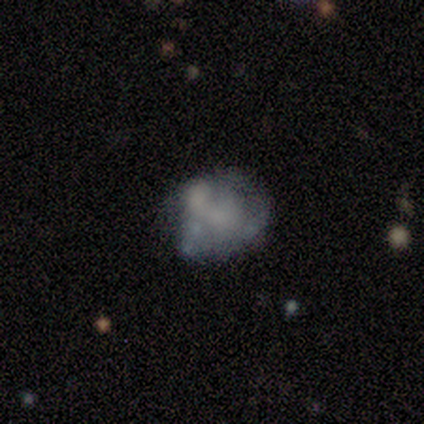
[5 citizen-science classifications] A featured or disk galaxy (60%) with no bar (100%), no spiral arms (100%) and no central bulge (67%). Merging: minor disturbance (60%).